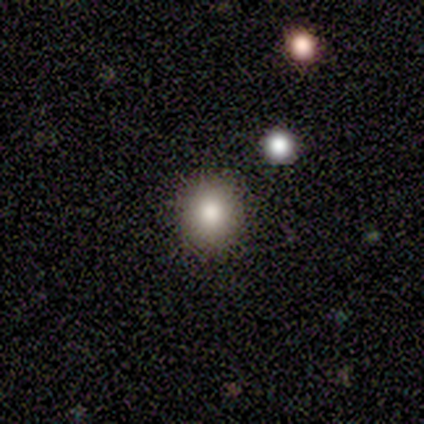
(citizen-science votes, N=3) Smooth or featured? smooth (67%)
How rounded? round (100%)
Merging? none (100%)